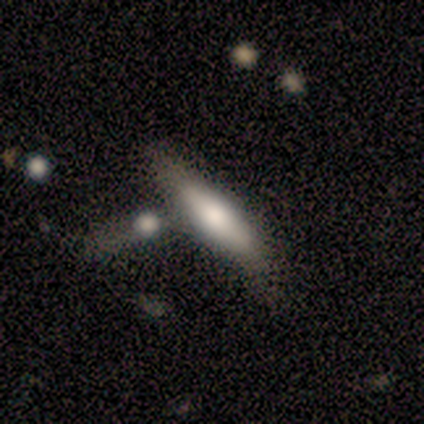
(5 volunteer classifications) A smooth galaxy with no disk features (80%) that is in between round and cigar-shaped (50%, tied with cigar-shaped). Merging: none (40%).